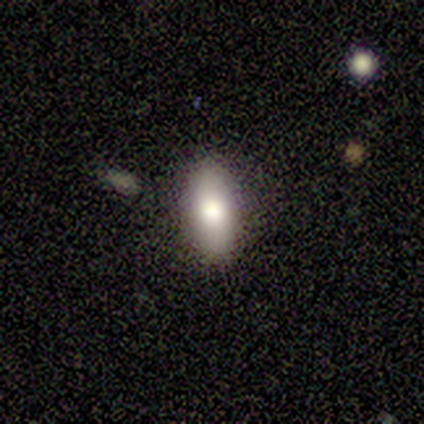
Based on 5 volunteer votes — Morphology: type=smooth (60%); roundness=cigar-shaped (67%); merging=none (33%, tied with minor disturbance and major disturbance).